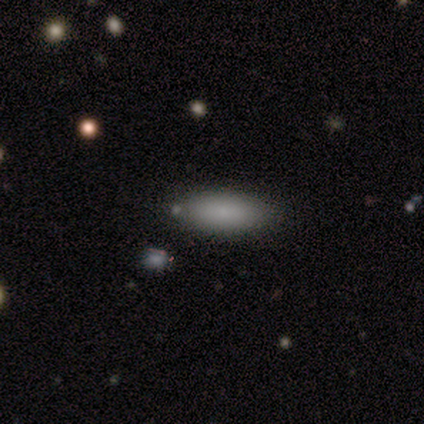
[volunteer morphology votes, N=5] Volunteers were most divided on "smooth or featured": smooth: 60%, featured or disk: 40%, star or artifact: 0%. More confident: merging — none (80%); how rounded — cigar-shaped (67%).